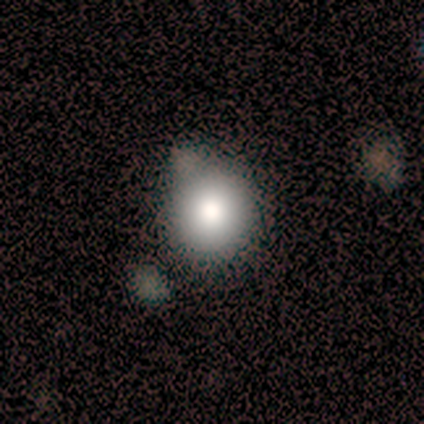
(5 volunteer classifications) This is clearly a smooth galaxy (100%). How rounded: likely round (60%). Merging: marginally none (40%).